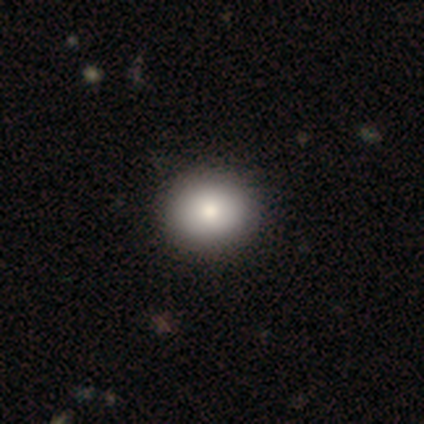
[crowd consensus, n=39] smooth_or_featured: smooth (p=0.90) [alt: featured or disk p=0.08]
how_rounded: round (p=0.71) [alt: in between p=0.29]
merging: none (p=0.61) [alt: minor disturbance p=0.03]